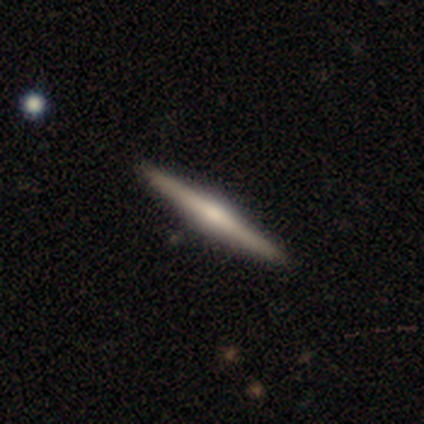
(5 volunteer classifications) A featured or disk galaxy (60%) viewed edge-on (100%) with a rounded central bulge (67%).

Vote fractions:
- Smooth or featured? featured or disk: 60% / smooth: 20% / star or artifact: 20%
- Edge-on disk? yes: 100% / no: 0%
- Edge-on bulge? rounded: 67% / none: 33% / boxy: 0%
- Merging? none: 100% / minor disturbance: 0% / major disturbance: 0% / merger: 0%